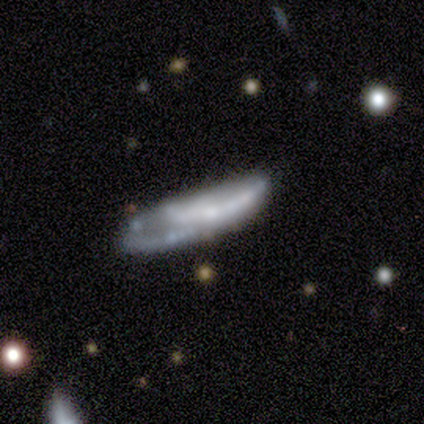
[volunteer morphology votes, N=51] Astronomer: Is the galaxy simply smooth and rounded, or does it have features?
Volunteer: featured or disk — 67%.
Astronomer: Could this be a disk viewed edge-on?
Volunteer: no — 88%.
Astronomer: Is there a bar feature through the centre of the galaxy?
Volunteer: no — 70%.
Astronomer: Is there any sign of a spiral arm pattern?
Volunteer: yes — 50%, tied with no at 50%.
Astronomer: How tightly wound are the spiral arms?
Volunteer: medium — 40% (runner-up: tight, 33%).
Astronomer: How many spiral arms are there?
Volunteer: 2 — 40% (runner-up: can't tell, 33%).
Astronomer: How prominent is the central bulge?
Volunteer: none — 40% (runner-up: small, 33%).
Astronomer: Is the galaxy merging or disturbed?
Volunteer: none — 52%.